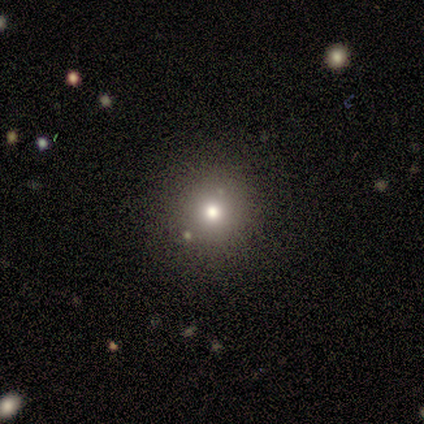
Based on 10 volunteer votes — Smooth or featured? smooth (50%)
How rounded? round (100%)
Merging? none (100%)